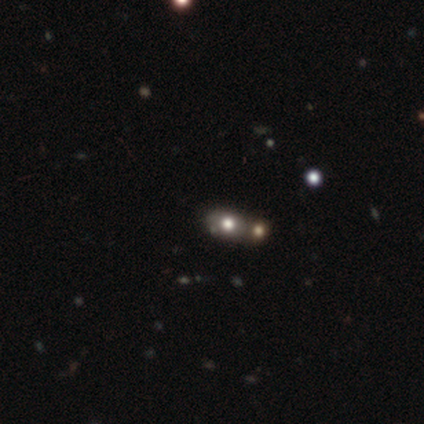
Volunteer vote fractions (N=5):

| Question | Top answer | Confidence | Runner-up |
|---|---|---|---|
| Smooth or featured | featured or disk | 40% | tied: star or artifact (40%) |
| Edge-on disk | no | 100% | — |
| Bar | no | 100% | — |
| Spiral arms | no | 100% | — |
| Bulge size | dominant | 50% | tied: large (50%) |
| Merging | merger | 67% | none (33%) |